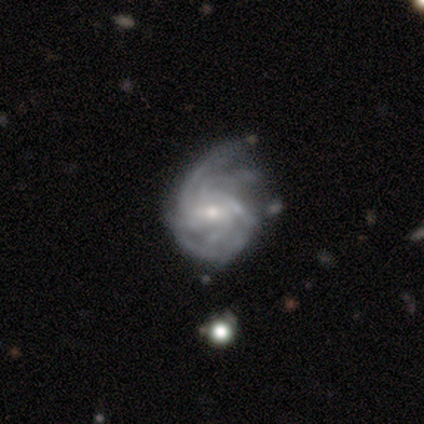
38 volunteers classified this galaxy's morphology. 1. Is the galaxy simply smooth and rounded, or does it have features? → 95% featured or disk, 5% star or artifact, 0% smooth.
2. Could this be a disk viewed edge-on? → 100% no, 0% yes.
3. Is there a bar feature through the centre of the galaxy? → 53% weak, 33% no, 14% strong.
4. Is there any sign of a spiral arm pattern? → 100% yes, 0% no.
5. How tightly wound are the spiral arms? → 47% tight, 31% medium, 22% loose.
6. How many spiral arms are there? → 39% can't tell, 28% 4, 11% 3, 11% more than 4, 8% 2, 3% 1.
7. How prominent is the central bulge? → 50% small, 47% moderate, 3% large, 0% dominant, 0% none.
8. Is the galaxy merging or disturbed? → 39% minor disturbance, 17% none, 17% major disturbance, 6% merger.